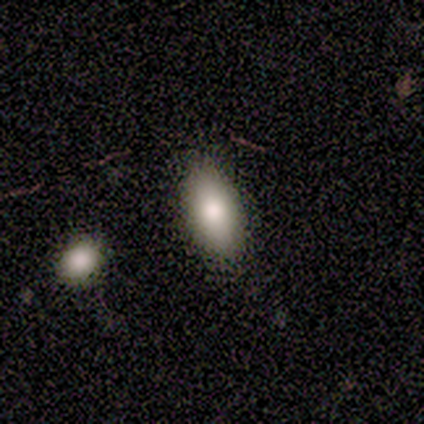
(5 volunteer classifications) A star or artifact, not a galaxy (60%).

Vote fractions:
- Smooth or featured? star or artifact: 60% / smooth: 40% / featured or disk: 0%